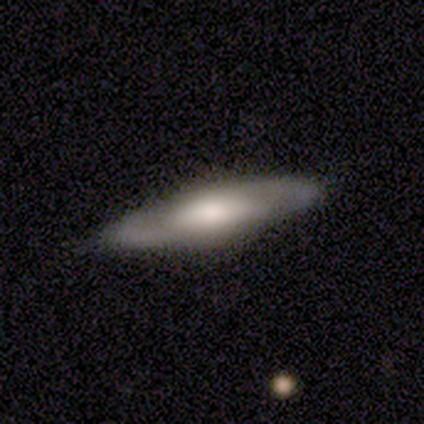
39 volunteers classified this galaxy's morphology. Q: Smooth or featured?
A: featured or disk (64%); runner-up: smooth (31%)
Q: Edge-on disk?
A: yes (72%); runner-up: no (28%)
Q: Edge-on bulge?
A: rounded (67%); runner-up: none (28%)
Q: Merging?
A: none (81%); runner-up: minor disturbance (16%)